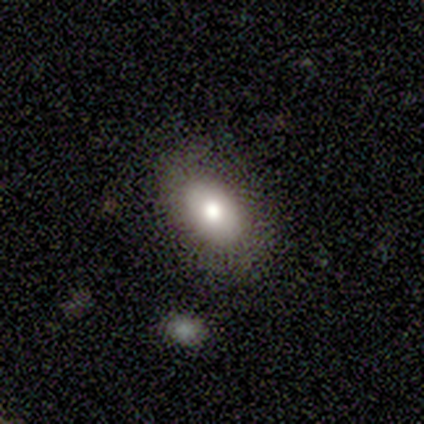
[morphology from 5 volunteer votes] smooth_or_featured: smooth (p=0.60) [alt: featured or disk p=0.20]
how_rounded: in between (p=1.00)
merging: none (p=1.00)